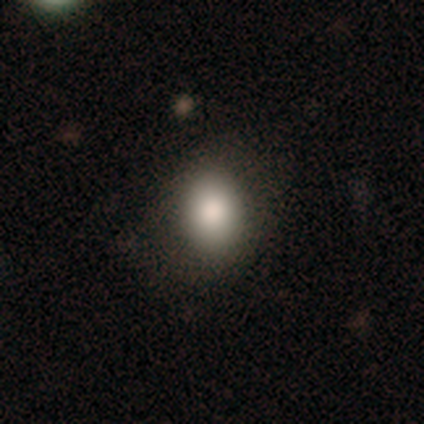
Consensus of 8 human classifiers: A smooth galaxy with no disk features (62%) that is in between round and cigar-shaped (60%). Merging: none (86%).